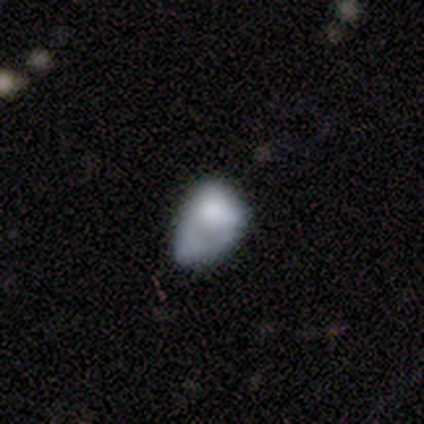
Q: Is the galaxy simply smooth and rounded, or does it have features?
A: smooth — 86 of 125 (69%).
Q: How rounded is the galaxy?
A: in between — 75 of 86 (87%).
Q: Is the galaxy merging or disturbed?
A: minor disturbance — 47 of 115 (41%).